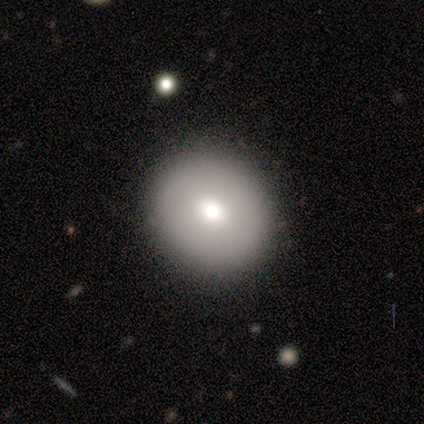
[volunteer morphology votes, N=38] Smooth or featured? smooth (84%)
How rounded? round (78%)
Merging? none (81%)